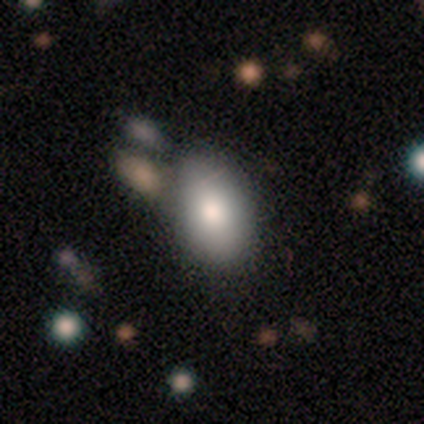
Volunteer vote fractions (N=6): A smooth galaxy with no disk features (67%) that is in between round and cigar-shaped (100%).

Vote fractions:
- Smooth or featured? smooth: 67% / featured or disk: 33% / star or artifact: 0%
- How rounded? in between: 100% / round: 0% / cigar-shaped: 0%
- Merging? none: 100% / minor disturbance: 0% / major disturbance: 0% / merger: 0%